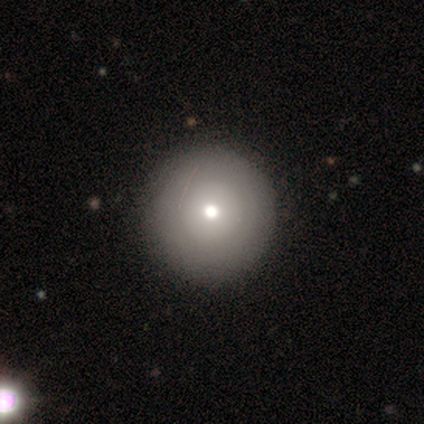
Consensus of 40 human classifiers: A smooth galaxy with no disk features (68%) that is round (100%). Merging: none (72%).